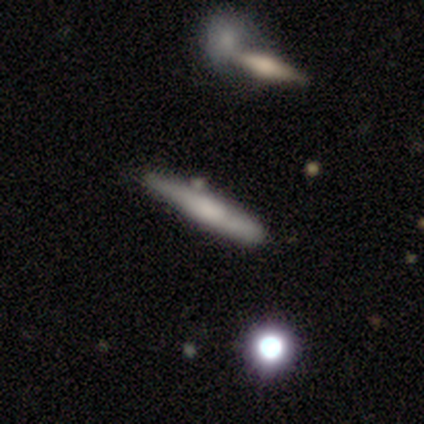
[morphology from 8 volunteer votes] featured or disk 62%, smooth 38%, star or artifact 0%. Down the decision tree: edge-on disk — yes (100%); edge-on bulge — rounded (80%); merging — none (75%).